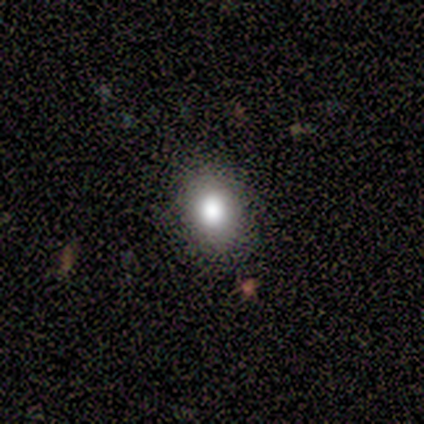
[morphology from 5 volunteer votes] smooth-or-featured: smooth: 80% | star or artifact: 20% | featured or disk: 0%
  how-rounded: round: 50% (tied) | in between: 50% (tied) | cigar-shaped: 0%
  merging: none: 100% | minor disturbance: 0% | major disturbance: 0% | merger: 0%